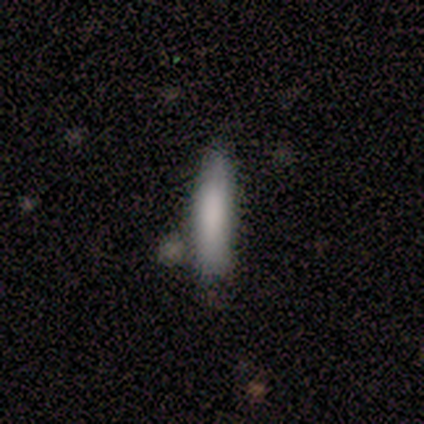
Smooth or featured? 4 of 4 (100%) said smooth. How rounded? 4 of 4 (100%) said cigar-shaped. Merging? 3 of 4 (75%) said none.